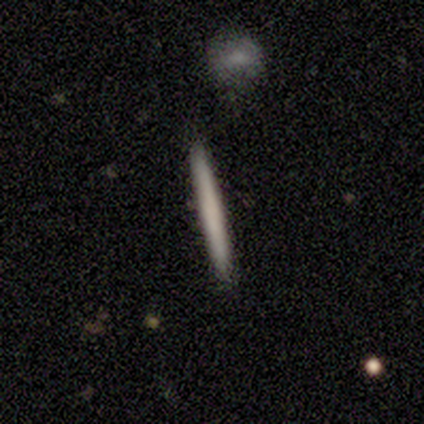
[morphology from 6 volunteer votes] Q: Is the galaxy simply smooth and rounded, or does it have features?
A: smooth — 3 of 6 (50%, tied with featured or disk).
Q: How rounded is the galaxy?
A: cigar-shaped — 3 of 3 (100%).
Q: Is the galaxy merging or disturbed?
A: none — 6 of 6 (100%).